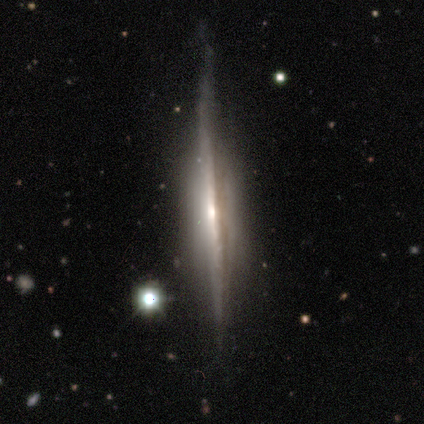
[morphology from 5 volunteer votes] Smooth or featured: featured or disk — 100%
Edge-on disk: yes — 100%
Edge-on bulge: none — 40% (tied with rounded — 40%)
Merging: none — 80% (minor disturbance — 20%)